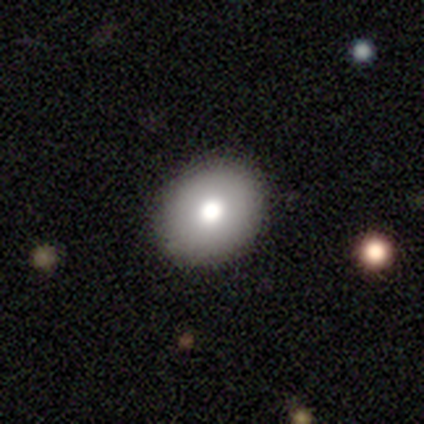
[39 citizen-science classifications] smooth 72%, featured or disk 23%, star or artifact 5%. Down the decision tree: how rounded — round (71%); merging — none (92%).